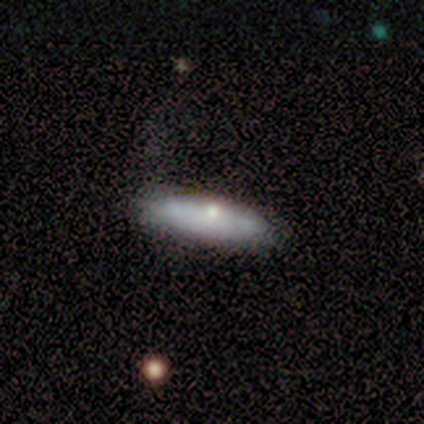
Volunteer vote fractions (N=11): This appears to be a smooth galaxy with no disk features (64%) that is cigar-shaped (57%). Merging: none (100%).